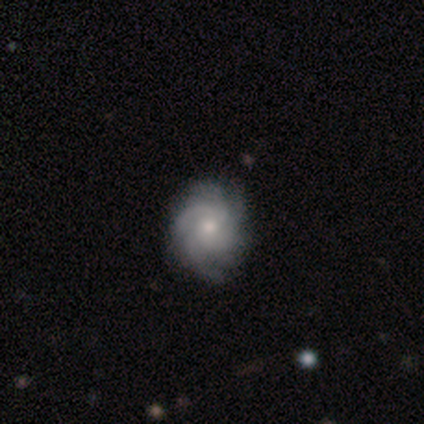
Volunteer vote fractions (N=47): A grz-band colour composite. It shows a featured or disk galaxy (89%) with no bar (72%), more than 4 (34%) tight (61%) spiral arms (95%) and a moderate central bulge (60%). Merging: none (93%).